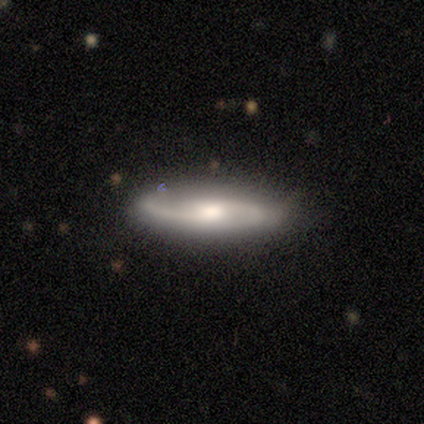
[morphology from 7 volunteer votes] Smooth or featured: featured or disk — 86% (smooth — 14%)
Edge-on disk: no — 100%
Bar: no — 100%
Spiral arms: yes — 83% (no — 17%)
Spiral winding: medium — 40% (tied with loose — 40%)
Spiral arm count: 2 — 100%
Bulge size: moderate — 50% (dominant — 17%)
Merging: none — 100%